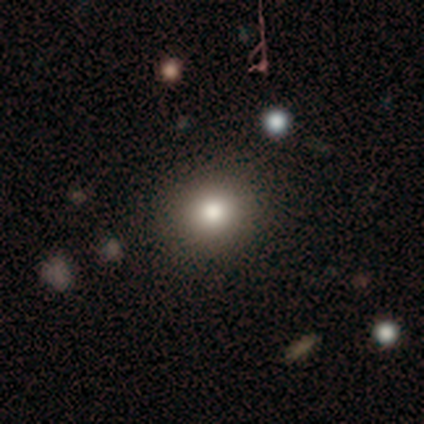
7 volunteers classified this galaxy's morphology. A smooth galaxy with no disk features (71%) that is round (80%).

Vote fractions:
- Smooth or featured? smooth: 71% / featured or disk: 29% / star or artifact: 0%
- How rounded? round: 80% / in between: 20% / cigar-shaped: 0%
- Merging? none: 86% / minor disturbance: 14% / major disturbance: 0% / merger: 0%